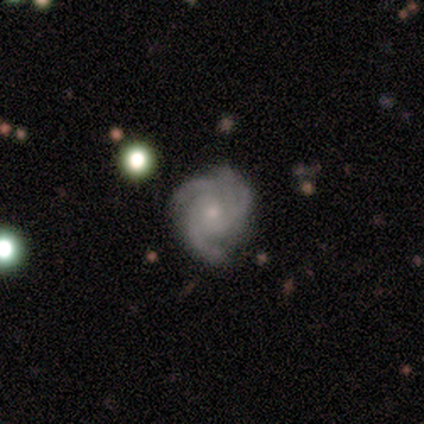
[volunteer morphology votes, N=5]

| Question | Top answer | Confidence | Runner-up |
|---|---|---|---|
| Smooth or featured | featured or disk | 100% | — |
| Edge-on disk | no | 100% | — |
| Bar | no | 80% | weak (20%) |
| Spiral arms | yes | 100% | — |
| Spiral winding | tight | 80% | medium (20%) |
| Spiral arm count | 3 | 80% | can't tell (20%) |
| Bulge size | small | 60% | moderate (40%) |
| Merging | none | 80% | minor disturbance (20%) |